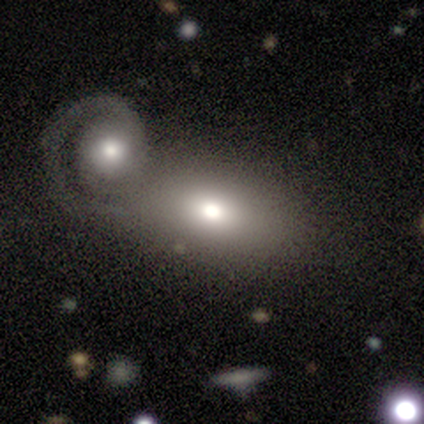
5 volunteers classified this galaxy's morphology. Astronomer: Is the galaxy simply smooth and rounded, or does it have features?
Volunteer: smooth — 40%, tied with star or artifact at 40%.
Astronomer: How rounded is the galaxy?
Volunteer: in between — 100%.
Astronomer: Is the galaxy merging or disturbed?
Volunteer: merger — 67%.